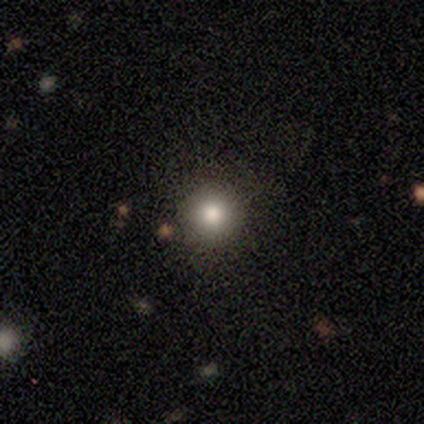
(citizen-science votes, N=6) This is clearly a smooth galaxy (83%). How rounded: clearly round (100%). Merging: clearly none (100%).